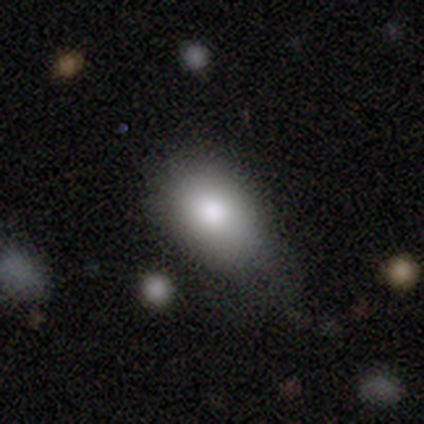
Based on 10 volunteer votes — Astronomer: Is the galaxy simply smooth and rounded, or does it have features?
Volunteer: smooth — 80%.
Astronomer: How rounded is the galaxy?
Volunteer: in between — 88%.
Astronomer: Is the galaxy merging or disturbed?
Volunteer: none — 44%, tied with minor disturbance at 44%.